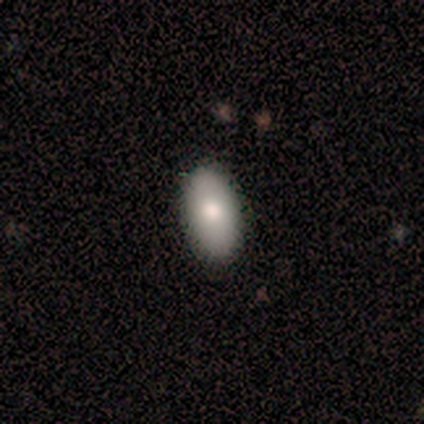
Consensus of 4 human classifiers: Smooth or featured: smooth — 75% (featured or disk — 25%)
How rounded: in between — 100%
Merging: none — 75% (minor disturbance — 25%)